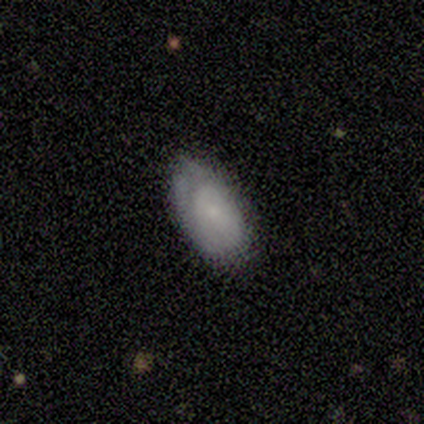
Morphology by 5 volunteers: Smooth or featured?
  - smooth: 80% *
  - featured or disk: 20%
  - star or artifact: 0%
How rounded?
  - in between: 100% *
  - round: 0%
  - cigar-shaped: 0%
Merging?
  - none: 100% *
  - minor disturbance: 0%
  - major disturbance: 0%
  - merger: 0%